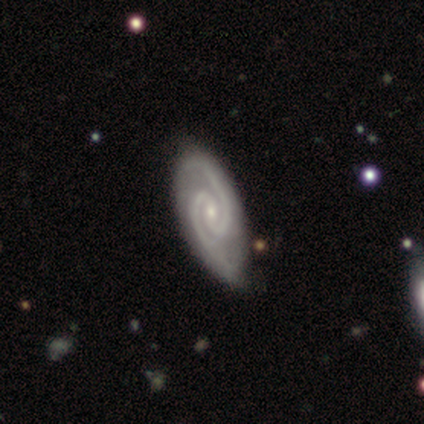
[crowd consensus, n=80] Smooth or featured?
  - featured or disk: 94% *
  - star or artifact: 4%
  - smooth: 2%
Edge-on disk?
  - no: 97% *
  - yes: 3%
Bar?
  - no: 47% *
  - weak: 45%
  - strong: 8%
Spiral arms?
  - yes: 100% *
  - no: 0%
Spiral winding?
  - tight: 47% *
  - medium: 41%
  - loose: 12%
Spiral arm count?
  - 2: 99% *
  - 3: 1%
  - 1: 0%
  - 4: 0%
  - more than 4: 0%
  - can't tell: 0%
Bulge size?
  - small: 85% *
  - moderate: 15%
  - dominant: 0%
  - large: 0%
  - none: 0%
Merging?
  - none: 39% *
  - minor disturbance: 14%
  - major disturbance: 0%
  - merger: 0%